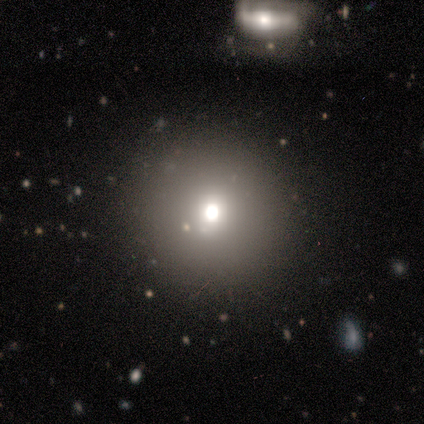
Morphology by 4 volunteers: Smooth or featured? 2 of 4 (50%, tied with featured or disk) said smooth. How rounded? 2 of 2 (100%) said round. Merging? 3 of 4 (75%) said none.